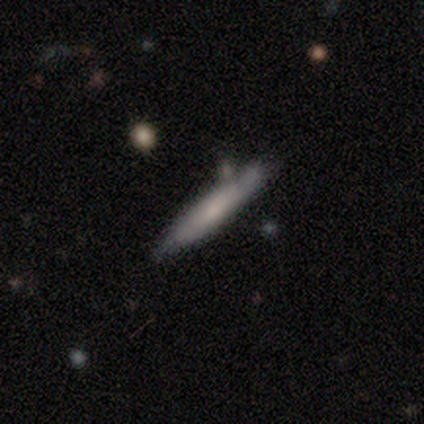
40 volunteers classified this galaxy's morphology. Smooth or featured? 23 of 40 (57%) said smooth. How rounded? 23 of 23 (100%) said cigar-shaped. Merging? 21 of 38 (55%) said none.